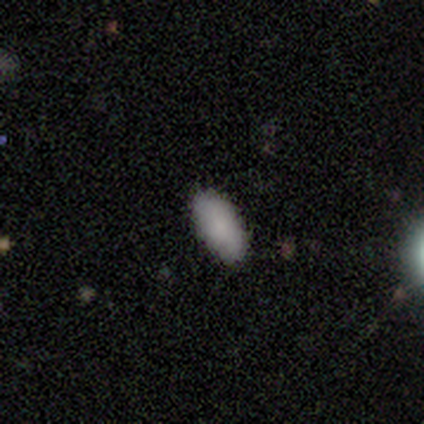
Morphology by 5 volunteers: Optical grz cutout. It shows a smooth galaxy with no disk features (100%) that is in between round and cigar-shaped (80%). Merging: none (80%).